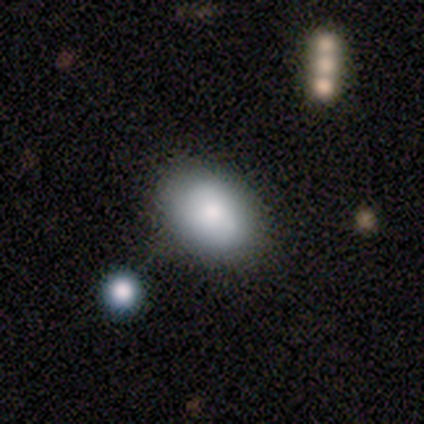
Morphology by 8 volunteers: Smooth or featured: smooth — 62% (star or artifact — 25%)
How rounded: in between — 80% (round — 20%)
Merging: none — 67% (minor disturbance — 17%)